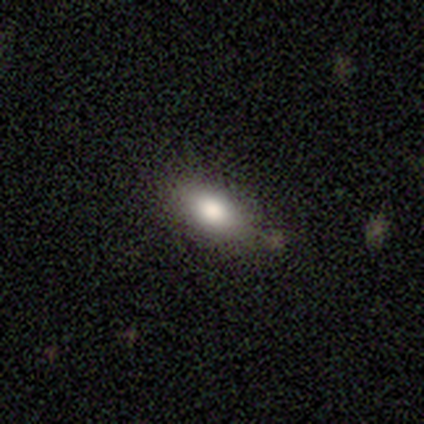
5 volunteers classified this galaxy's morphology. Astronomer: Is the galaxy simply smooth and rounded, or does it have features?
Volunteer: smooth — 80%.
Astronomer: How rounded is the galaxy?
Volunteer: in between — 75%.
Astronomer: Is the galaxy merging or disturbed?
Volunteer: none — 100%.